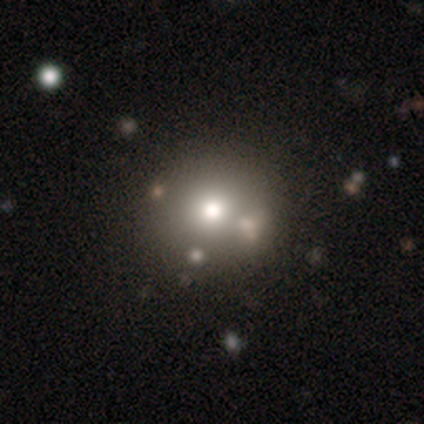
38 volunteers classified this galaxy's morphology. Smooth or featured: smooth — 68% (featured or disk — 18%)
How rounded: round — 85% (in between — 15%)
Merging: none — 64% (minor disturbance — 21%)